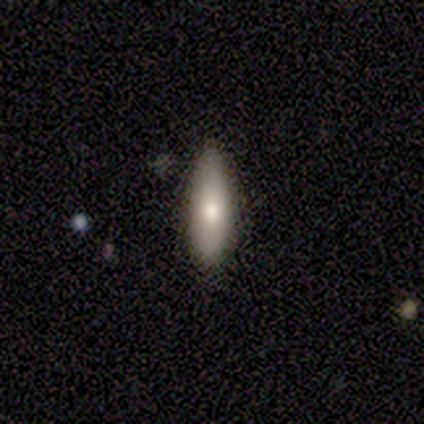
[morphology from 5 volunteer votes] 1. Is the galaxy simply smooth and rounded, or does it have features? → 60% smooth, 40% featured or disk, 0% star or artifact.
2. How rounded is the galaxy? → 67% cigar-shaped, 33% in between, 0% round.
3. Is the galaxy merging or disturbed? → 60% none, 40% minor disturbance, 0% major disturbance, 0% merger.